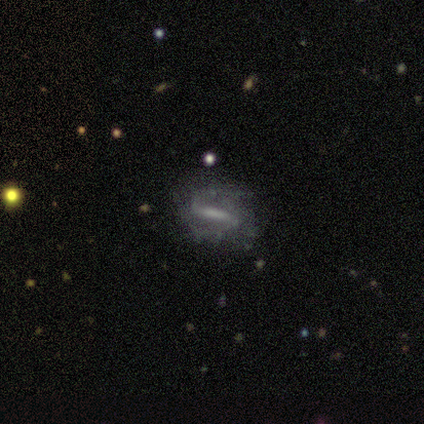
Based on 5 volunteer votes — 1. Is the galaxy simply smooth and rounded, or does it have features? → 100% featured or disk, 0% smooth, 0% star or artifact.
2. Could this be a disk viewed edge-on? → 80% no, 20% yes.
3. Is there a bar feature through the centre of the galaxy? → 50% weak, 25% strong, 25% no.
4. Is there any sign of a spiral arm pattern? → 75% yes, 25% no.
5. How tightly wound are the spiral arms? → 100% loose, 0% tight, 0% medium.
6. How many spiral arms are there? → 67% 2, 33% 1, 0% 3, 0% 4, 0% more than 4, 0% can't tell.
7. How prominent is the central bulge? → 50% none, 25% large, 25% small, 0% dominant, 0% moderate.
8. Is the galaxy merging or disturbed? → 60% minor disturbance, 20% none, 20% merger, 0% major disturbance.